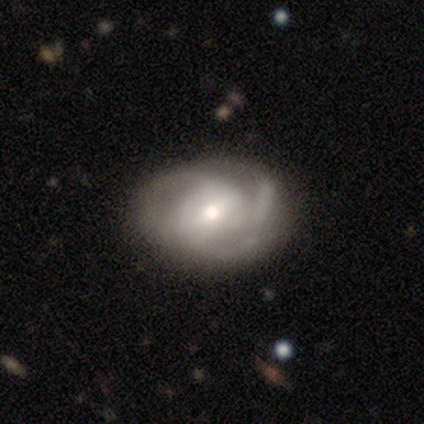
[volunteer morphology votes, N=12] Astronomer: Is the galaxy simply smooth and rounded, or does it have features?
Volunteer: featured or disk — 58% (runner-up: smooth, 42%).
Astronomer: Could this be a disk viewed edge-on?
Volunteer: no — 100%.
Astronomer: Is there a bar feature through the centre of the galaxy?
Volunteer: weak — 57% (runner-up: no, 43%).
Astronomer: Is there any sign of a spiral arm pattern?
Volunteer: yes — 100%.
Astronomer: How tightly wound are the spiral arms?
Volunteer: medium — 57%.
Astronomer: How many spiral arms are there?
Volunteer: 2 — 43%, tied with 3 at 43%.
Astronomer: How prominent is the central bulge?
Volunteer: moderate — 71%.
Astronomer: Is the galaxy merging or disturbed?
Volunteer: none — 58%.